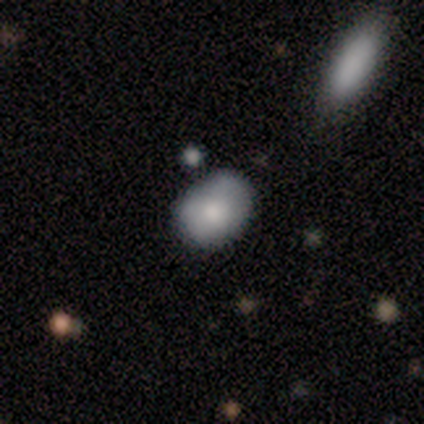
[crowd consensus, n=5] Morphology: type=smooth (100%); roundness=in between (100%); merging=none (80%).